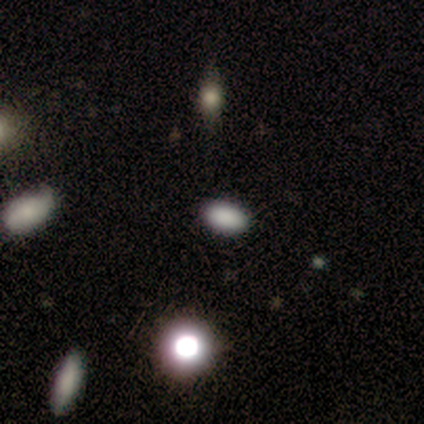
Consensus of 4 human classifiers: Smooth or featured?
  - star or artifact: 75% *
  - smooth: 25%
  - featured or disk: 0%